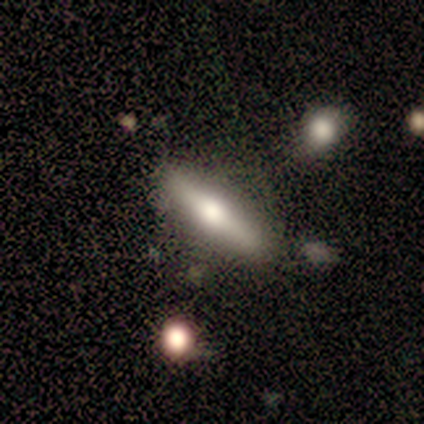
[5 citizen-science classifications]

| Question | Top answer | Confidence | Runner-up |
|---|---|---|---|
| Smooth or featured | featured or disk | 60% | smooth (40%) |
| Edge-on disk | yes | 100% | — |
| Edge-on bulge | rounded | 100% | — |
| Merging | none | 60% | minor disturbance (40%) |